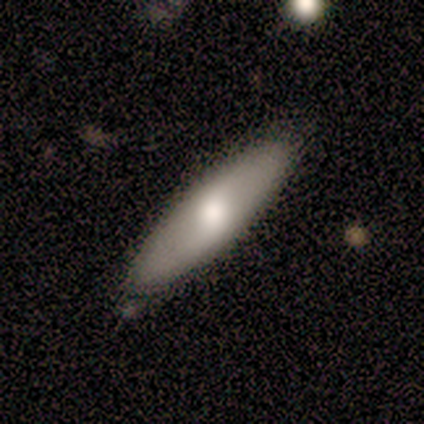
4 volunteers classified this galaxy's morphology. A featured or disk galaxy (75%) viewed edge-on (67%) with a boxy central bulge (50%, tied with rounded). Merging: none (75%).